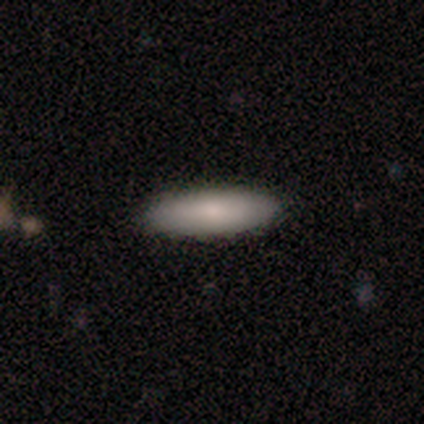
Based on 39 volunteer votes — A smooth galaxy with no disk features (85%) that is cigar-shaped (64%).

Vote fractions:
- Smooth or featured? smooth: 85% / featured or disk: 13% / star or artifact: 3%
- How rounded? cigar-shaped: 64% / in between: 36% / round: 0%
- Merging? none: 92% / minor disturbance: 5% / merger: 3% / major disturbance: 0%